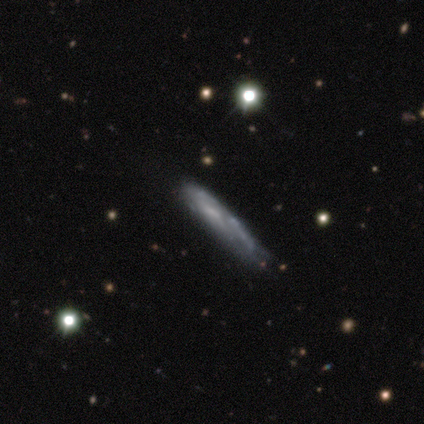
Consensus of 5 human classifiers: Q: Smooth or featured?
A: smooth (60%); runner-up: featured or disk (40%)
Q: How rounded?
A: cigar-shaped (100%)
Q: Merging?
A: none (80%); runner-up: major disturbance (20%)